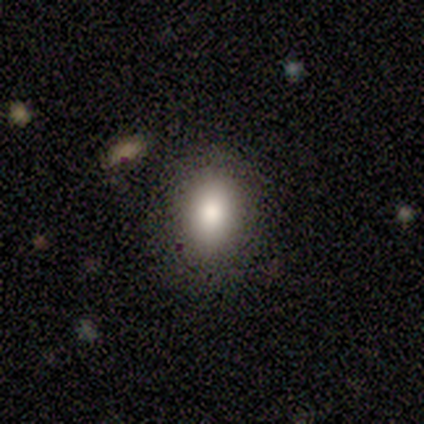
Morphology: type=smooth (77%); roundness=in between (80%); merging=none (76%).